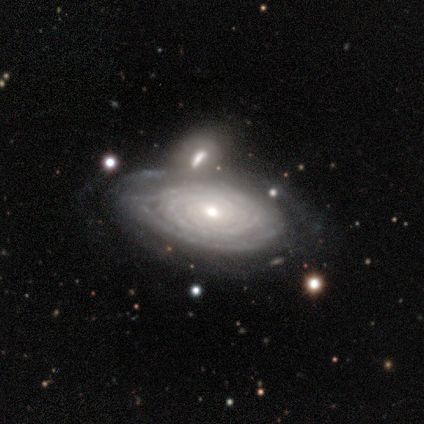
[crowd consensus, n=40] A featured or disk galaxy (90%) with no bar (82%), tight (94%) spiral arms (91%) and a moderate central bulge (56%). Merging: none (52%).